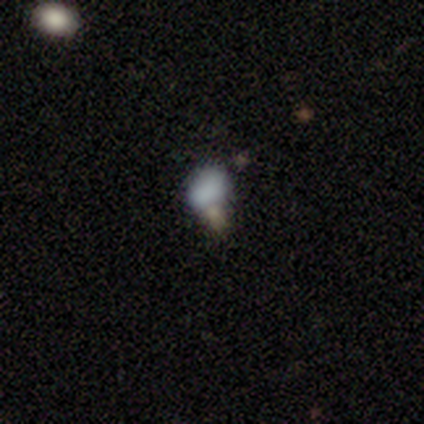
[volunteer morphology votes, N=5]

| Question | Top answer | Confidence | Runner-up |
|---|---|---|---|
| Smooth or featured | smooth | 80% | featured or disk (20%) |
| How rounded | in between | 75% | round (25%) |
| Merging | minor disturbance | 40% | tied: major disturbance (40%) |